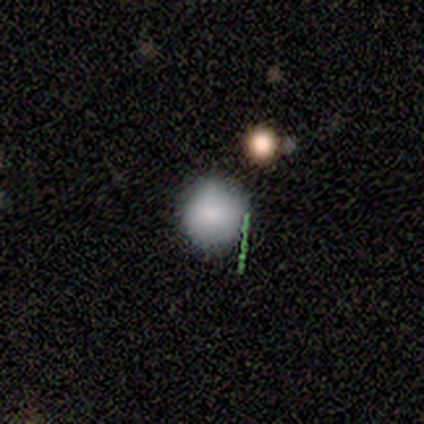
Smooth or featured? smooth (60%)
How rounded? round (100%)
Merging? none (100%)